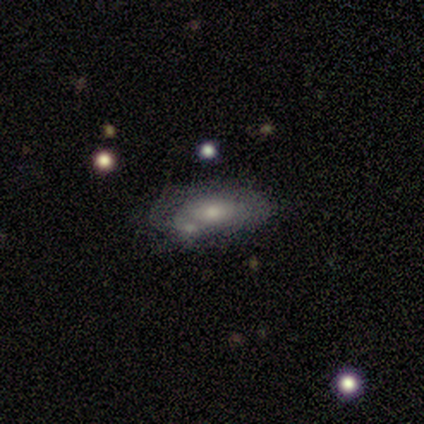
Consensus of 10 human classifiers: Smooth or featured: smooth — 50% (featured or disk — 40%)
How rounded: in between — 80% (round — 20%)
Merging: none — 56% (minor disturbance — 22%)